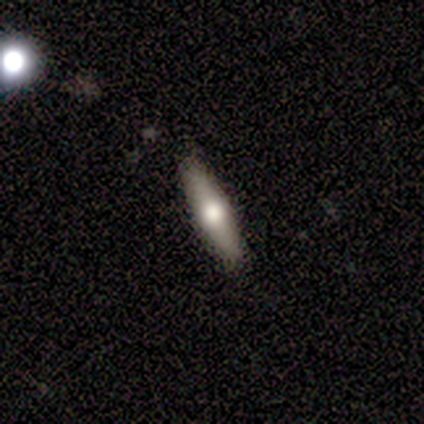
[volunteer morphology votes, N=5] Q: Smooth or featured?
A: smooth (60%); runner-up: featured or disk (40%)
Q: How rounded?
A: in between (67%); runner-up: cigar-shaped (33%)
Q: Merging?
A: none (60%); runner-up: minor disturbance (20%)